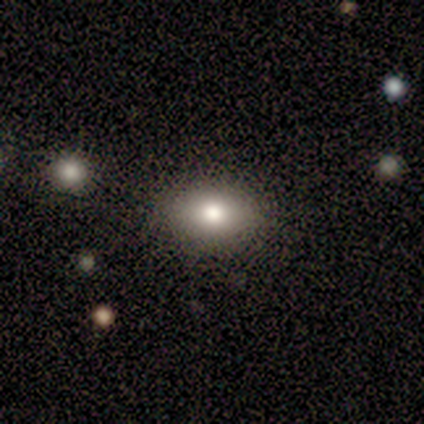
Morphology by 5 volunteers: This is clearly a smooth galaxy (100%). How rounded: likely in between (60%). Merging: clearly none (80%).